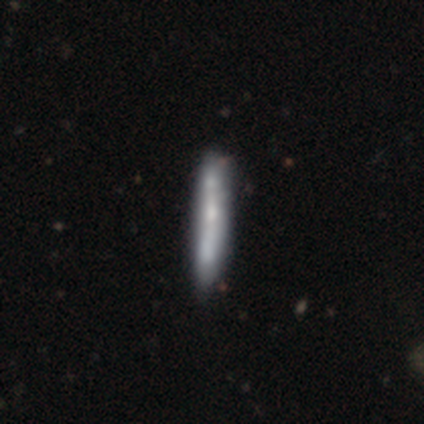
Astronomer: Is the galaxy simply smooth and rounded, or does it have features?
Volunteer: featured or disk — 52% (runner-up: smooth, 44%).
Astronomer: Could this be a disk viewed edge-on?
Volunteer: yes — 73%.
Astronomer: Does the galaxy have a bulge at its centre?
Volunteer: none — 63%.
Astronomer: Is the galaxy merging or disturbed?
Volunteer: none — 30% (runner-up: minor disturbance, 12%).